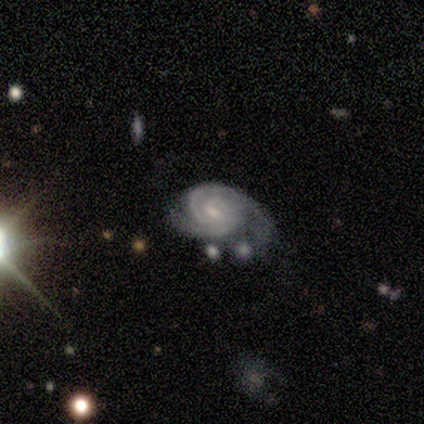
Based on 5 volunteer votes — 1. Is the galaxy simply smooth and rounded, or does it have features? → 100% featured or disk, 0% smooth, 0% star or artifact.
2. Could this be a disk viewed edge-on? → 100% no, 0% yes.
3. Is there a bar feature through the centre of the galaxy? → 60% weak, 40% no, 0% strong.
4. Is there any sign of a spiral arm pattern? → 100% yes, 0% no.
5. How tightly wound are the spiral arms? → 60% tight, 40% medium, 0% loose.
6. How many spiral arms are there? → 80% 2, 20% can't tell, 0% 1, 0% 3, 0% 4, 0% more than 4.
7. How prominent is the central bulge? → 80% small, 20% none, 0% dominant, 0% large, 0% moderate.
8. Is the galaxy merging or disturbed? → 60% none, 20% minor disturbance, 20% merger, 0% major disturbance.